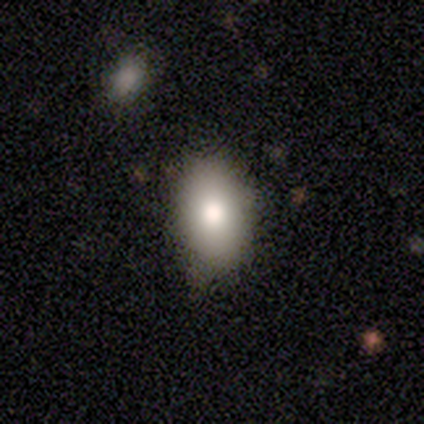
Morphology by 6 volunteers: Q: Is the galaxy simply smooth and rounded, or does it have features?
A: smooth — 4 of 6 (67%).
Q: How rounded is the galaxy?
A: in between — 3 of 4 (75%).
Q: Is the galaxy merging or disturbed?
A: none — 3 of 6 (50%).